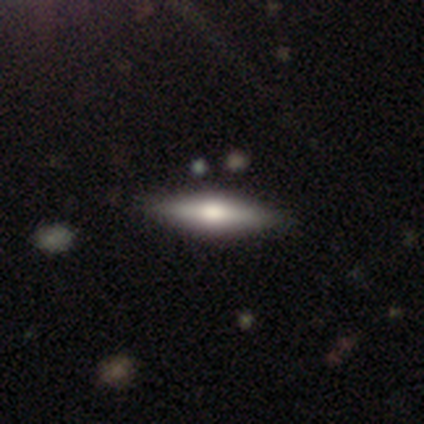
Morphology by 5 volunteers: Smooth or featured: smooth — 60% (featured or disk — 40%)
How rounded: cigar-shaped — 67% (in between — 33%)
Merging: none — 100%